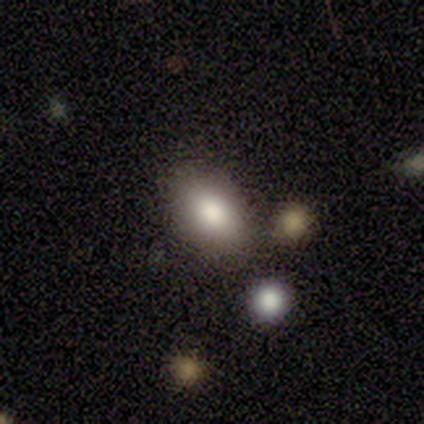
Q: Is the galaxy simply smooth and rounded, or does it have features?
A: smooth — 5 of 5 (100%).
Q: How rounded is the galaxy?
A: in between — 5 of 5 (100%).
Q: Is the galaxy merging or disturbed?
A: none — 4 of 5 (80%).